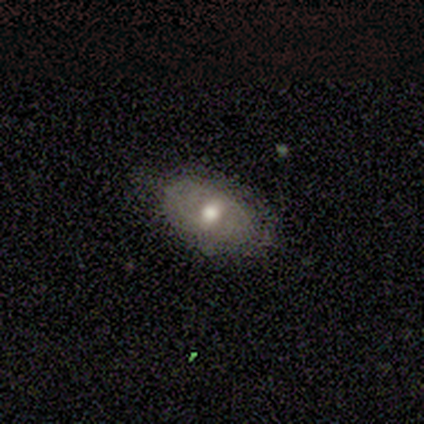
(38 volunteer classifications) Morphology: type=featured or disk (47%); edge-on=no (100%); bar=no (78%); spiral arms=no (72%); bulge=moderate (72%); merging=none (77%).